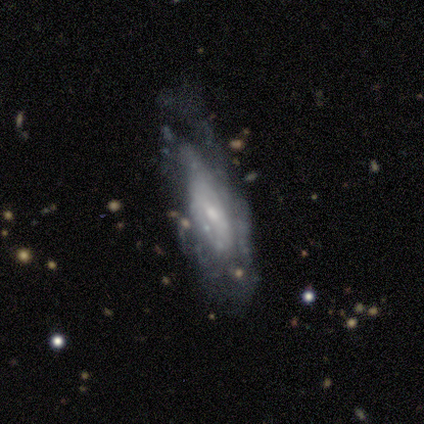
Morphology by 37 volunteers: featured or disk 73%, star or artifact 16%, smooth 11%. Down the decision tree: edge-on disk — no (81%); bar — no (68%); spiral arms — yes (64%); spiral arm count — can't tell (64%); spiral winding — tight (43%, tied with medium); bulge size — small (55%); merging — none (55%).